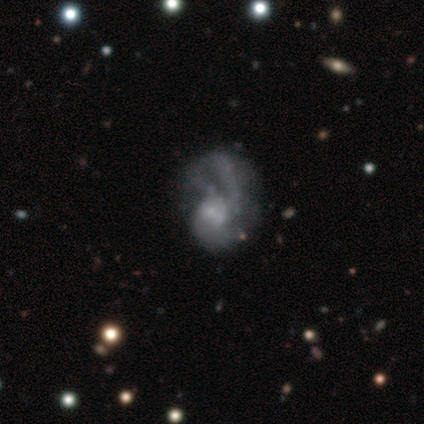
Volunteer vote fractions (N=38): Smooth or featured? featured or disk (74%)
Edge-on disk? no (100%)
Bar? no (57%)
Spiral arms? no (54%)
Bulge size? small (39%)
Merging? none (44%)